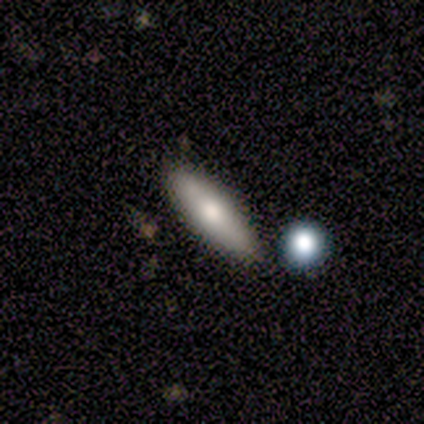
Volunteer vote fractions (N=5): Smooth or featured? 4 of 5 (80%) said smooth. How rounded? 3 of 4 (75%) said in between. Merging? 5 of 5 (100%) said none.